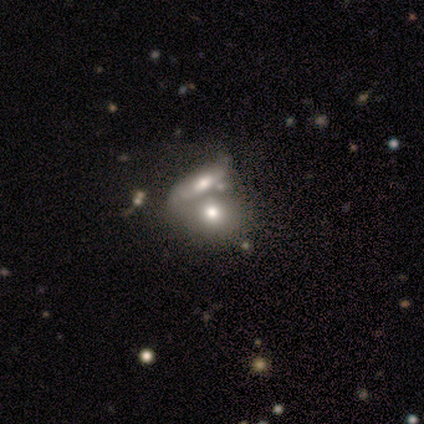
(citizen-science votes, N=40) Q: Smooth or featured?
A: smooth (70%); runner-up: featured or disk (28%)
Q: How rounded?
A: in between (57%); runner-up: round (39%)
Q: Merging?
A: merger (74%); runner-up: none (15%)